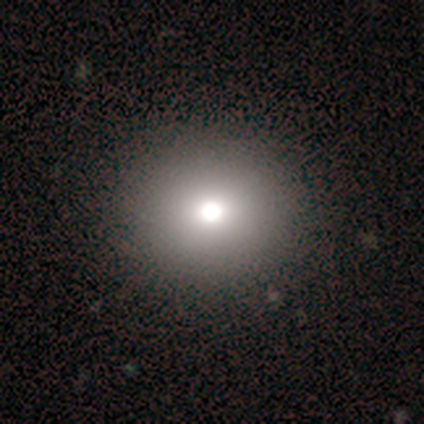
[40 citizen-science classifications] Smooth or featured: smooth — 82% (star or artifact — 10%)
How rounded: round — 79% (in between — 21%)
Merging: none — 67% (major disturbance — 6%)